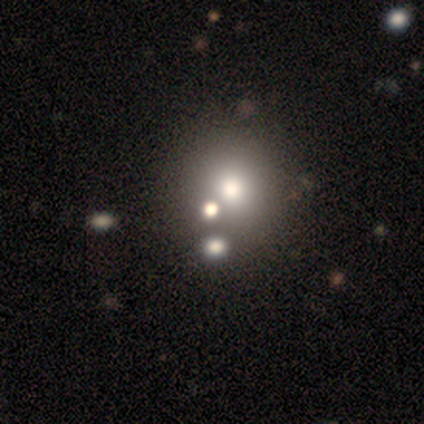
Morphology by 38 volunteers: Smooth or featured? 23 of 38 (61%) said smooth. How rounded? 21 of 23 (91%) said round. Merging? 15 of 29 (52%) said none.